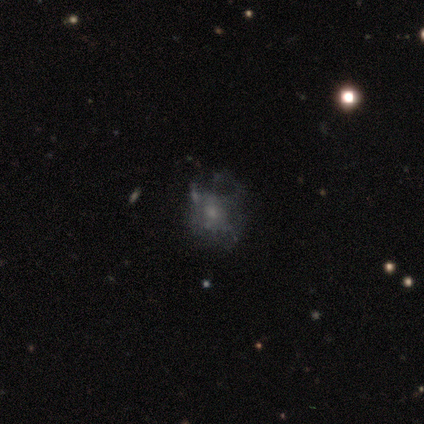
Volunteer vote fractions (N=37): Morphology: type=featured or disk (54%); edge-on=no (100%); bar=no (80%); spiral arms=no (70%); bulge=small (45%); merging=none (39%, tied with major disturbance).